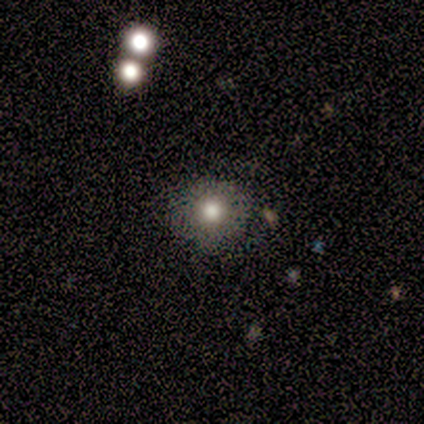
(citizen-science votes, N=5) Smooth or featured? 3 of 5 (60%) said featured or disk. Edge-on disk? 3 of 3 (100%) said no. Bar? 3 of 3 (100%) said no. Spiral arms? 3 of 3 (100%) said no. Bulge size? 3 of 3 (100%) said moderate. Merging? 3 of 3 (100%) said none.